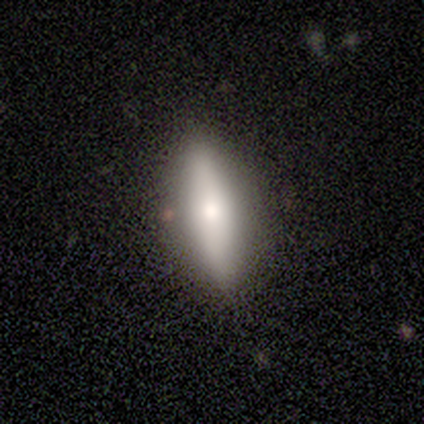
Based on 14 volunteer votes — smooth-or-featured: smooth: 79% | featured or disk: 14% | star or artifact: 7%
  how-rounded: cigar-shaped: 55% | in between: 45% | round: 0%
  merging: none: 100% | minor disturbance: 0% | major disturbance: 0% | merger: 0%